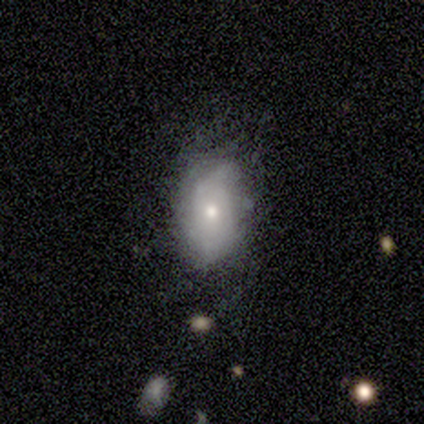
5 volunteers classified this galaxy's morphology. featured or disk 60%, smooth 40%, star or artifact 0%. Down the decision tree: edge-on disk — no (100%); bar — no (100%); spiral arms — yes (67%); spiral arm count — 2 (50%, tied with can't tell); spiral winding — tight (50%, tied with loose); bulge size — moderate (67%); merging — none (40%, tied with minor disturbance).